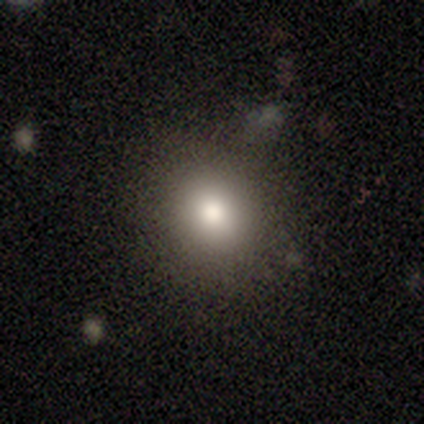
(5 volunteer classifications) Smooth or featured?
  - smooth: 60% *
  - featured or disk: 40%
  - star or artifact: 0%
How rounded?
  - round: 67% *
  - in between: 33%
  - cigar-shaped: 0%
Merging?
  - none: 80% *
  - minor disturbance: 20%
  - major disturbance: 0%
  - merger: 0%